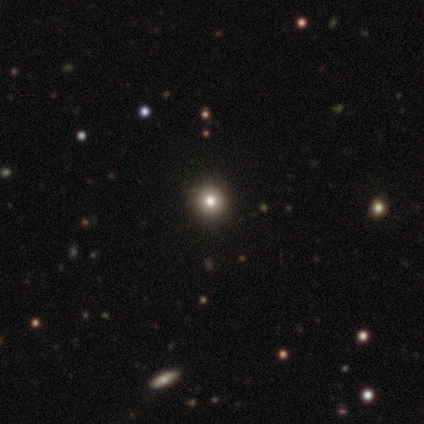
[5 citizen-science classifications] smooth_or_featured: smooth (p=0.60) [alt: star or artifact p=0.40]
how_rounded: round (p=1.00)
merging: none (p=1.00)